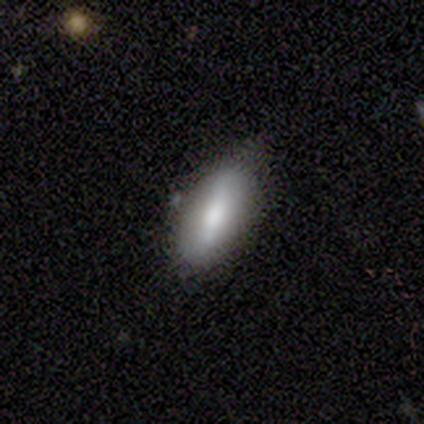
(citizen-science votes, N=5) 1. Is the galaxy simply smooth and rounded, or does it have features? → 100% smooth, 0% featured or disk, 0% star or artifact.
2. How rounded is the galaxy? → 80% in between, 20% cigar-shaped, 0% round.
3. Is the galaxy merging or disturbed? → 80% none, 20% minor disturbance, 0% major disturbance, 0% merger.